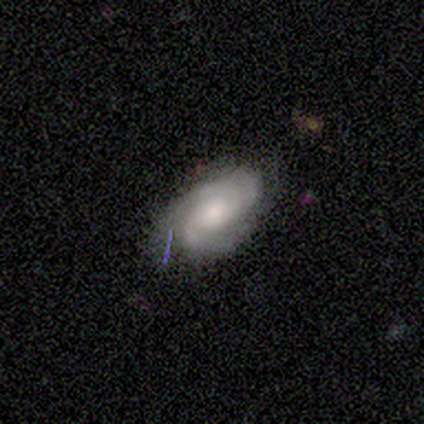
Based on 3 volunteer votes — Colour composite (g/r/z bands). It shows a featured or disk galaxy (67%) with no bar (100%), 2 (50%, tied with 3) tight (100%) spiral arms (100%) and a large central bulge (50%, tied with small). Merging: minor disturbance (67%).